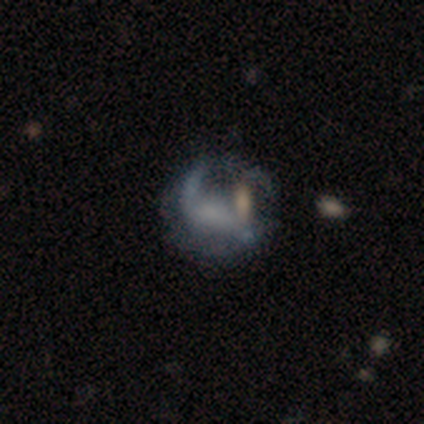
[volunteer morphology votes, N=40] This is possibly a featured or disk galaxy (57%). It is clearly not viewed edge-on (100%). Bar: possibly weak (57%). Spiral arm pattern: likely yes (65%). Spiral arm count: possibly 2 (53%). Spiral winding: likely medium (73%). Central bulge: likely none (61%). Merging: marginally major disturbance (44%).